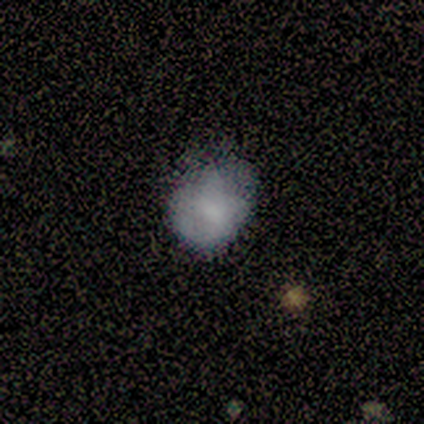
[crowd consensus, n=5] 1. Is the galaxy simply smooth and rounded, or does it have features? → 60% smooth, 20% featured or disk, 20% star or artifact.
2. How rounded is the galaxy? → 67% in between, 33% round, 0% cigar-shaped.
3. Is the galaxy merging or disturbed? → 50% none (tied), 50% minor disturbance (tied), 0% major disturbance, 0% merger.